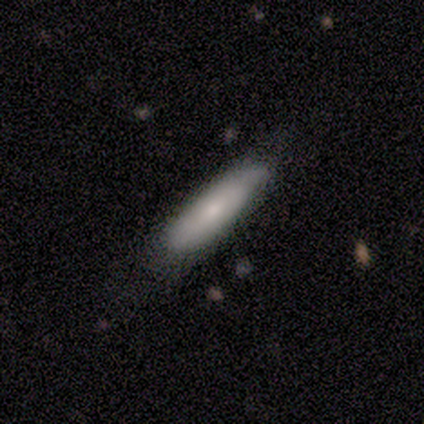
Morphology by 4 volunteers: smooth_or_featured: smooth (p=0.75) [alt: featured or disk p=0.25]
how_rounded: in between (p=1.00)
merging: none (p=0.75) [alt: minor disturbance p=0.25]